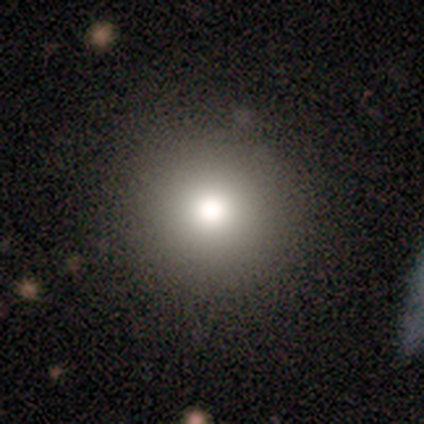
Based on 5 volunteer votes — Smooth or featured? smooth (60%)
How rounded? round (100%)
Merging? none (75%)